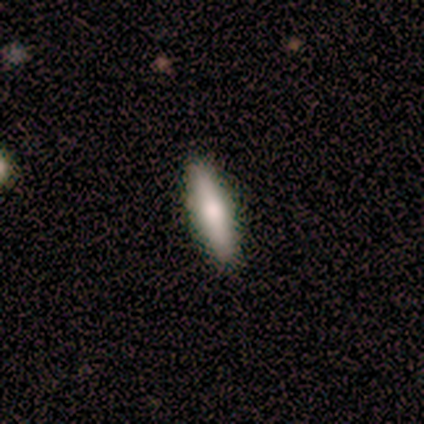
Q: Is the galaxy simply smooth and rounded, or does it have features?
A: smooth — 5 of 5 (100%).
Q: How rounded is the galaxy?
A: cigar-shaped — 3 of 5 (60%).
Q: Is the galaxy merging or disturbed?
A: none — 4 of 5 (80%).